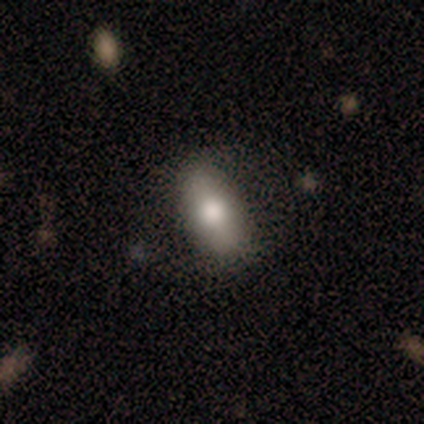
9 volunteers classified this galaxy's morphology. This appears to be a smooth galaxy with no disk features (67%) that is in between round and cigar-shaped (100%). Merging: none (89%).